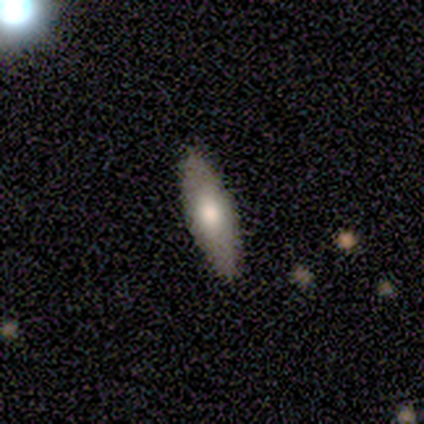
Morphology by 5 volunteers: Overall: smooth (100%). How rounded: in between (60%; cigar-shaped 40%). Merging: none (100%).